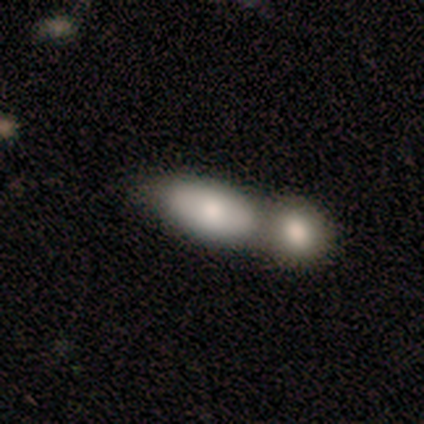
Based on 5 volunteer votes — smooth-or-featured: smooth: 80% | featured or disk: 20% | star or artifact: 0%
  how-rounded: in between: 100% | round: 0% | cigar-shaped: 0%
  merging: none: 40% (tied) | minor disturbance: 40% (tied) | merger: 20% | major disturbance: 0%